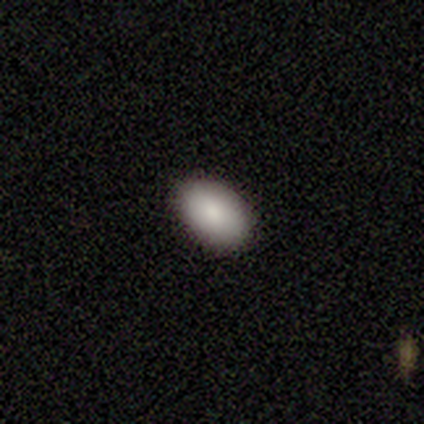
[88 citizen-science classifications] Morphology: type=smooth (82%); roundness=in between (94%); merging=none (94%).